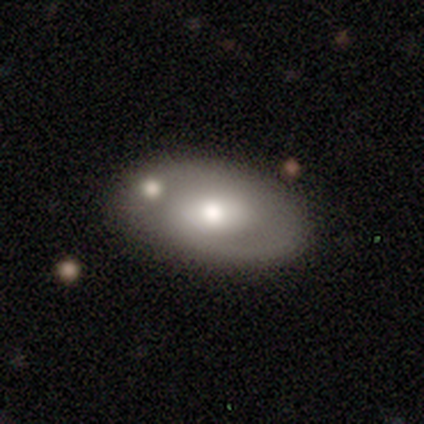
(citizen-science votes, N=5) Volunteers were most divided on "how rounded": in between: 80%, round: 20%, cigar-shaped: 0%. More confident: smooth or featured — smooth (100%); merging — none (100%).